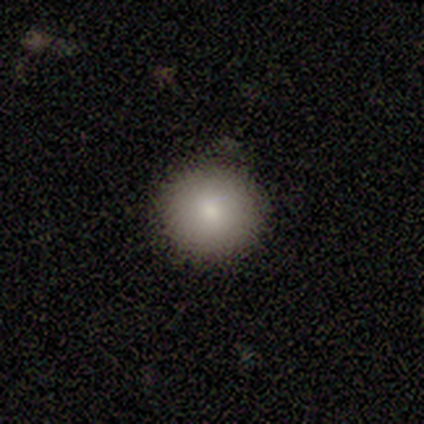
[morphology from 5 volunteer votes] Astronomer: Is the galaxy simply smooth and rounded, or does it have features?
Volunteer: smooth — 100%.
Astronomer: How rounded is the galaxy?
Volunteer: round — 80%.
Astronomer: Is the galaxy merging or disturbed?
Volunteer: none — 80%.